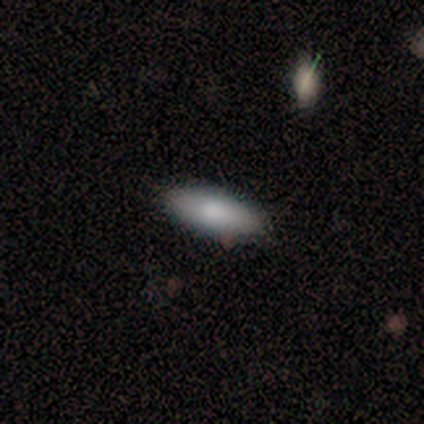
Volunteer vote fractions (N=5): This is clearly a smooth galaxy (80%). How rounded: likely in between (75%). Merging: clearly none (100%).